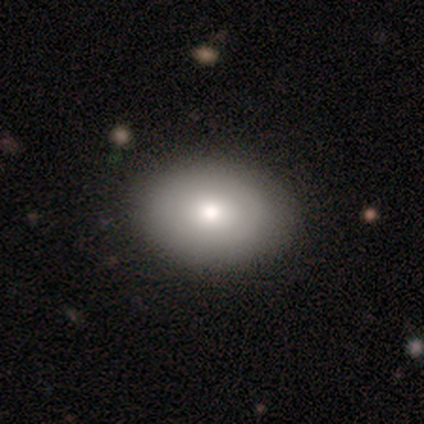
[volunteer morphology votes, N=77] A smooth galaxy with no disk features (78%) that is in between round and cigar-shaped (83%).

Vote fractions:
- Smooth or featured? smooth: 78% / featured or disk: 16% / star or artifact: 6%
- How rounded? in between: 83% / round: 15% / cigar-shaped: 2%
- Merging? none: 43% / minor disturbance: 7% / merger: 6% / major disturbance: 0%